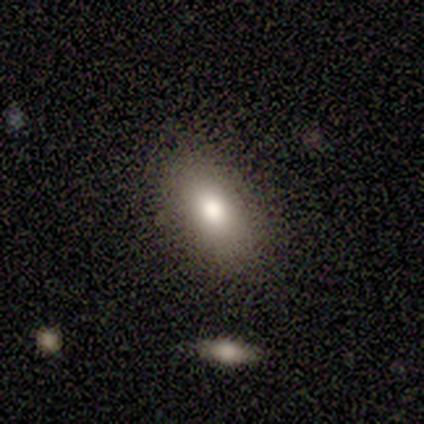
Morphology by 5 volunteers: Overall: smooth (80%). How rounded: in between (75%). Merging: none (100%).